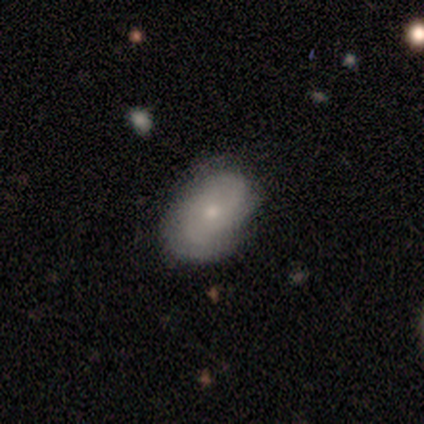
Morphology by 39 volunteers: Smooth or featured: smooth — 54% (featured or disk — 44%)
How rounded: in between — 95% (round — 5%)
Merging: none — 74% (minor disturbance — 26%)